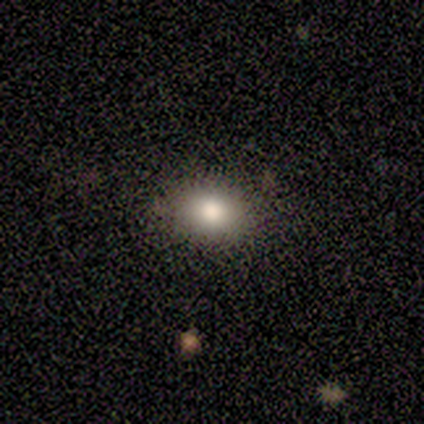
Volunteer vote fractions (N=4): Smooth or featured? smooth (50%)
How rounded? round (100%)
Merging? none (100%)